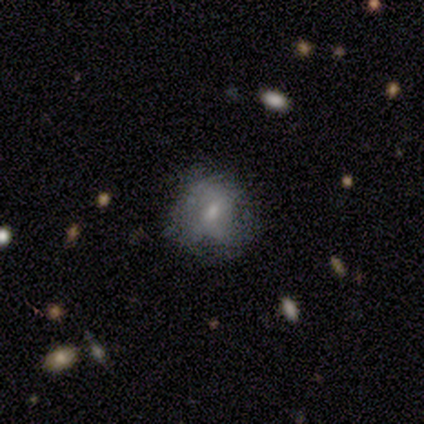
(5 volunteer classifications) Smooth or featured?
  - smooth: 60% *
  - featured or disk: 40%
  - star or artifact: 0%
How rounded?
  - in between: 67% *
  - round: 33%
  - cigar-shaped: 0%
Merging?
  - none: 40% * (tied)
  - minor disturbance: 40% * (tied)
  - major disturbance: 20%
  - merger: 0%